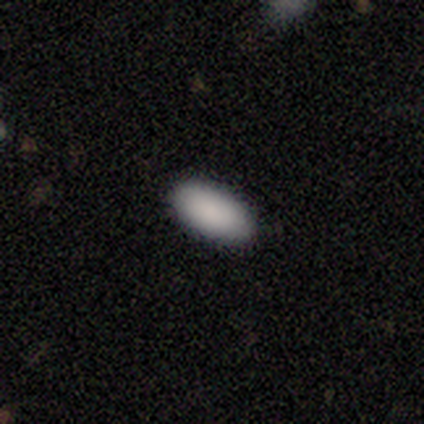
Smooth or featured? smooth (78%)
How rounded? in between (100%)
Merging? none (87%)